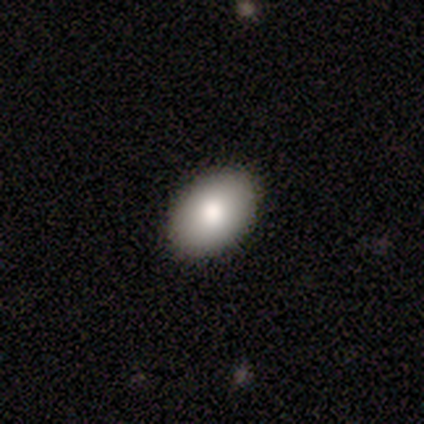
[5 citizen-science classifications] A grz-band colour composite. It shows a smooth galaxy with no disk features (40%, tied with featured or disk) that is in between round and cigar-shaped (100%). Merging: none (100%).